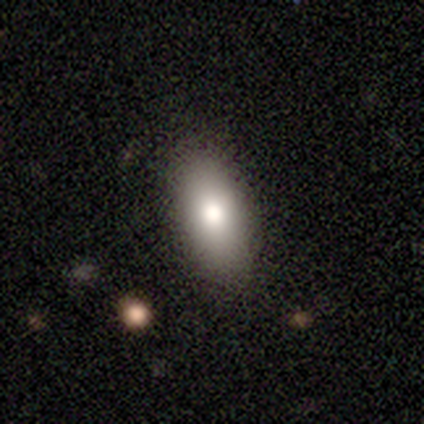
A smooth galaxy with no disk features (83%) that is in between round and cigar-shaped (88%). Merging: none (86%).